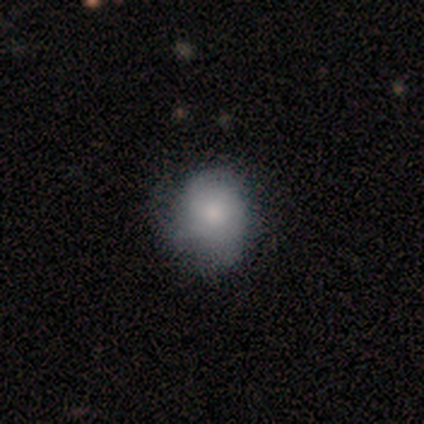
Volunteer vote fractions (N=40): A smooth galaxy with no disk features (57%) that is round (61%).

Vote fractions:
- Smooth or featured? smooth: 57% / featured or disk: 40% / star or artifact: 2%
- How rounded? round: 61% / in between: 39% / cigar-shaped: 0%
- Merging? none: 51% / minor disturbance: 21% / major disturbance: 5% / merger: 0%